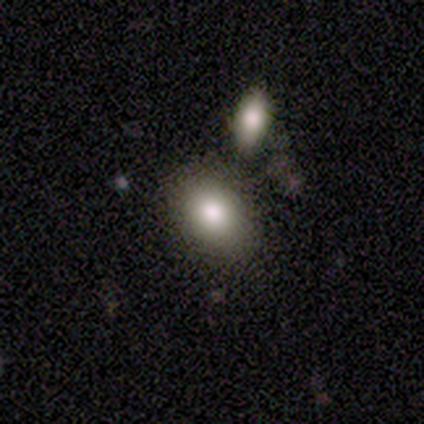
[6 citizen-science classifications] A smooth galaxy with no disk features (83%) that is in between round and cigar-shaped (100%).

Vote fractions:
- Smooth or featured? smooth: 83% / star or artifact: 17% / featured or disk: 0%
- How rounded? in between: 100% / round: 0% / cigar-shaped: 0%
- Merging? none: 60% / minor disturbance: 40% / major disturbance: 0% / merger: 0%